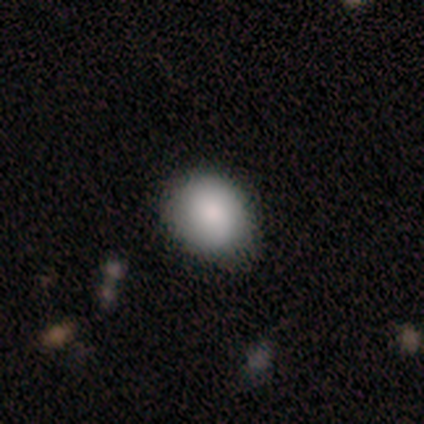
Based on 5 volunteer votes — smooth-or-featured: smooth: 80% | star or artifact: 20% | featured or disk: 0%
  how-rounded: round: 75% | in between: 25% | cigar-shaped: 0%
  merging: none: 75% | minor disturbance: 25% | major disturbance: 0% | merger: 0%